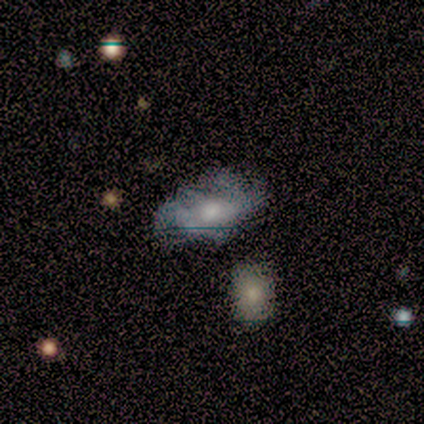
Smooth or featured?
  - featured or disk: 80% *
  - smooth: 20%
  - star or artifact: 0%
Edge-on disk?
  - no: 100% *
  - yes: 0%
Bar?
  - no: 75% *
  - weak: 25%
  - strong: 0%
Spiral arms?
  - no: 75% *
  - yes: 25%
Bulge size?
  - small: 75% *
  - none: 25%
  - dominant: 0%
  - large: 0%
  - moderate: 0%
Merging?
  - none: 60% *
  - minor disturbance: 40%
  - major disturbance: 0%
  - merger: 0%